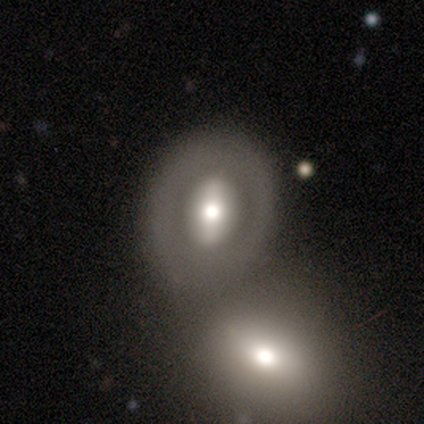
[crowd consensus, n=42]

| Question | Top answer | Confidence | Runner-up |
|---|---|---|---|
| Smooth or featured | featured or disk | 57% | smooth (31%) |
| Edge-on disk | no | 100% | — |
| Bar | strong | 62% | no (21%) |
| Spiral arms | no | 83% | yes (17%) |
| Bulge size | moderate | 58% | large (42%) |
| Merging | none | 38% | merger (32%) |